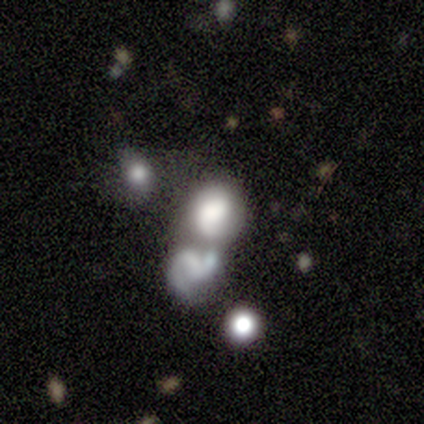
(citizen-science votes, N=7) This is marginally a featured or disk galaxy (43%, tied with star or artifact). It is clearly not viewed edge-on (100%). Bar: clearly no (100%). Spiral arm pattern: likely yes (67%). Spiral arm count: clearly 2 (100%). Spiral winding: clearly loose (100%). Central bulge: likely none (67%). Merging: possibly merger (50%).